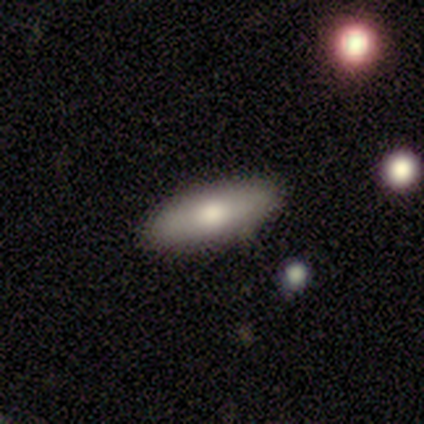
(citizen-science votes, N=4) smooth_or_featured: smooth (p=0.75) [alt: featured or disk p=0.25]
how_rounded: in between (p=0.67) [alt: cigar-shaped p=0.33]
merging: none (p=1.00)